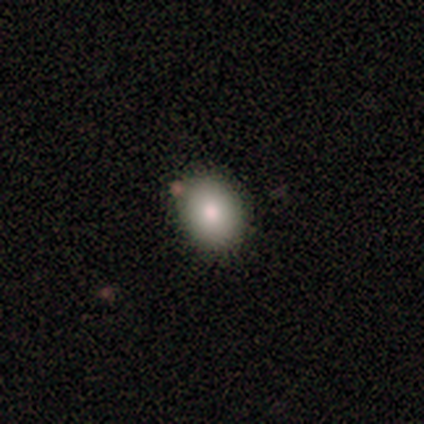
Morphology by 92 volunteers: smooth 79%, featured or disk 14%, star or artifact 7%. Down the decision tree: how rounded — in between (60%); merging — none (86%).